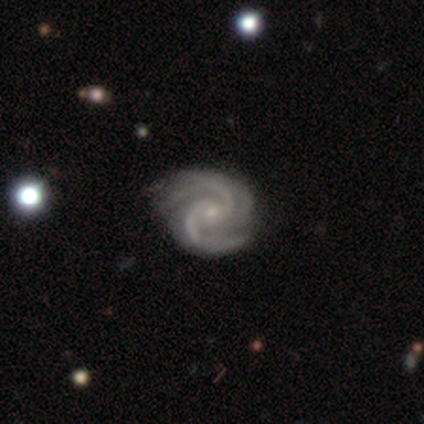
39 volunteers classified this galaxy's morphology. Smooth or featured? 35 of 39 (90%) said featured or disk. Edge-on disk? 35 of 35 (100%) said no. Bar? 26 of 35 (74%) said no. Spiral arms? 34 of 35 (97%) said yes. Spiral winding? 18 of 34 (53%) said tight. Spiral arm count? 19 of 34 (56%) said 2. Bulge size? 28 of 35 (80%) said small. Merging? 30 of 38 (79%) said none.